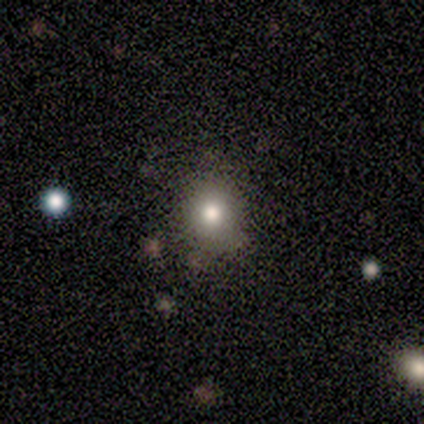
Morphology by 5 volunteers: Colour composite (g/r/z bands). It shows a smooth galaxy with no disk features (80%) that is round (75%). Merging: none (75%).